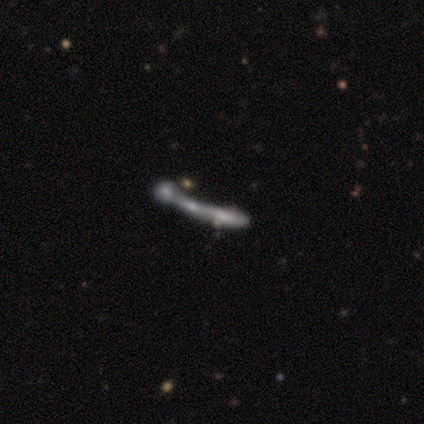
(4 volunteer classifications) smooth_or_featured: smooth (p=0.50) [tied with: featured or disk p=0.50]
how_rounded: in between (p=0.50) [tied with: cigar-shaped p=0.50]
merging: merger (p=0.75) [alt: major disturbance p=0.25]